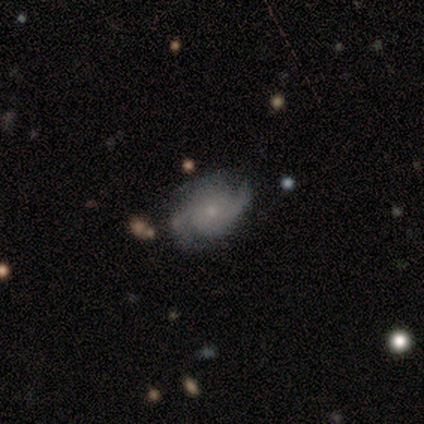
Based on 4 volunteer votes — Q: Smooth or featured?
A: featured or disk (75%); runner-up: smooth (25%)
Q: Edge-on disk?
A: no (100%)
Q: Bar?
A: no (67%); runner-up: strong (33%)
Q: Spiral arms?
A: yes (100%)
Q: Spiral winding?
A: medium (67%); runner-up: loose (33%)
Q: Spiral arm count?
A: 2 (67%); runner-up: can't tell (33%)
Q: Bulge size?
A: small (100%)
Q: Merging?
A: none (75%); runner-up: minor disturbance (25%)